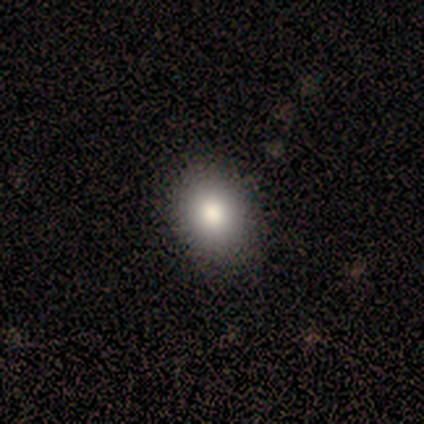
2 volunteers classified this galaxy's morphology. This is clearly a smooth galaxy (100%). How rounded: possibly round (50%, tied with in between). Merging: clearly none (100%).